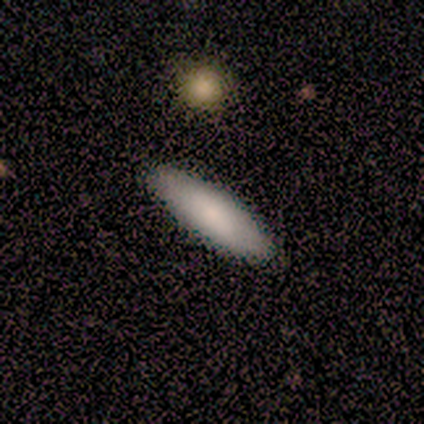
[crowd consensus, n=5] A smooth galaxy with no disk features (100%) that is cigar-shaped (80%).

Vote fractions:
- Smooth or featured? smooth: 100% / featured or disk: 0% / star or artifact: 0%
- How rounded? cigar-shaped: 80% / in between: 20% / round: 0%
- Merging? none: 100% / minor disturbance: 0% / major disturbance: 0% / merger: 0%